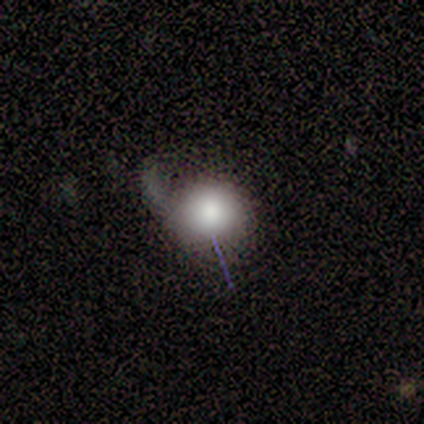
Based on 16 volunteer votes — This is clearly a smooth galaxy (88%). How rounded: likely round (79%). Merging: marginally major disturbance (40%).